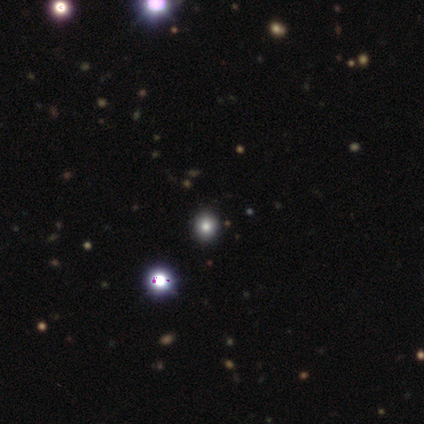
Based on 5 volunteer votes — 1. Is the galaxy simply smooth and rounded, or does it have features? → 60% smooth, 40% star or artifact, 0% featured or disk.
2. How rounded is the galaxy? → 100% round, 0% in between, 0% cigar-shaped.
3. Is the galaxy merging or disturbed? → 67% none, 33% minor disturbance, 0% major disturbance, 0% merger.